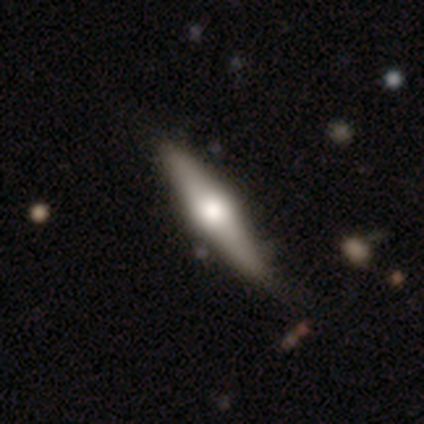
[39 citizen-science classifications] This appears to be a featured or disk galaxy (77%) viewed edge-on (97%) with a rounded central bulge (90%). Merging: none (43%).